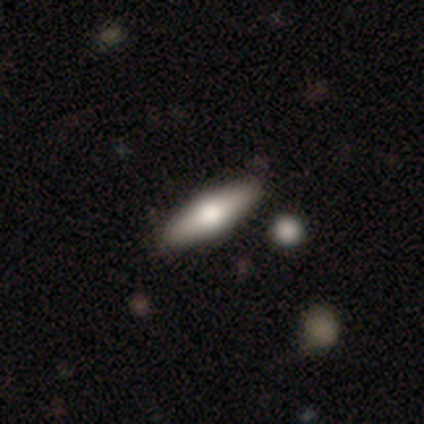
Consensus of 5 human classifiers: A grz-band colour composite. It shows a smooth galaxy with no disk features (60%) that is cigar-shaped (67%). Merging: none (80%).